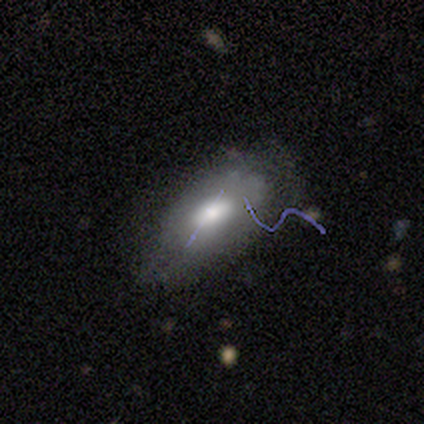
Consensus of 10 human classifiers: This is likely a smooth galaxy (60%). How rounded: clearly in between (100%). Merging: possibly none (57%).